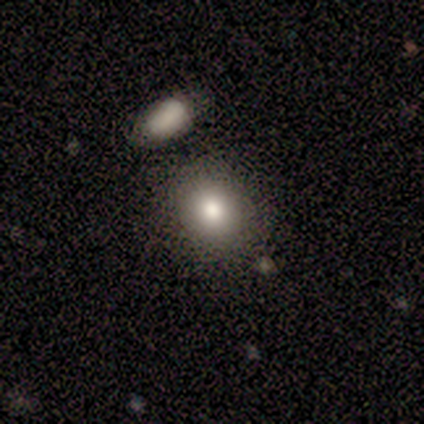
This is clearly a smooth galaxy (100%). How rounded: possibly round (50%, tied with in between). Merging: possibly none (50%).